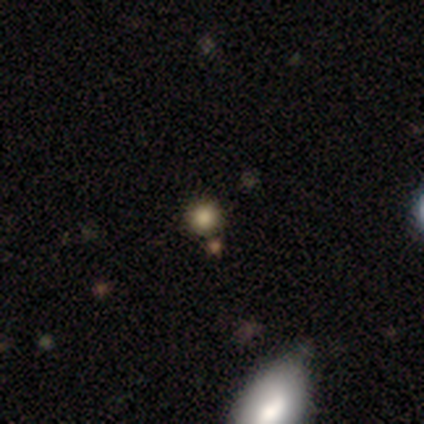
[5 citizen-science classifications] This is likely a smooth galaxy (60%). How rounded: clearly round (100%). Merging: likely none (67%).